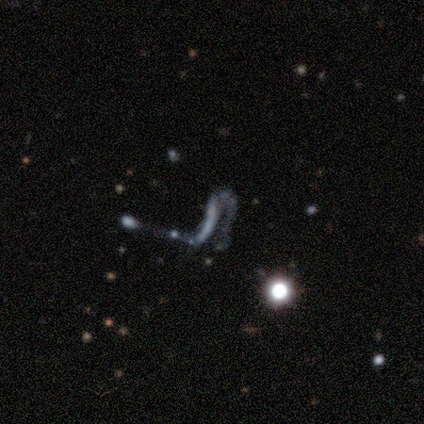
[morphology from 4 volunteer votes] Smooth or featured? star or artifact (50%)